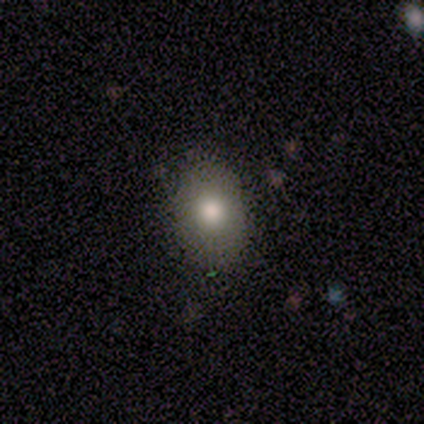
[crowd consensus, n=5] A smooth galaxy with no disk features (80%) that is in between round and cigar-shaped (100%). Merging: none (100%).